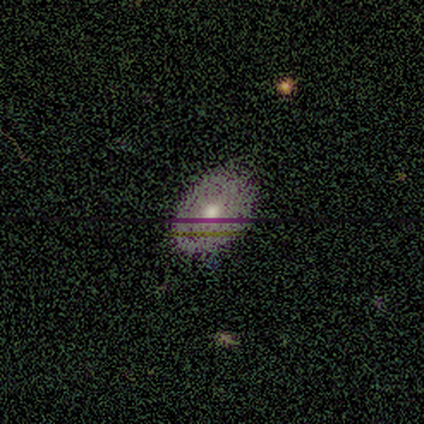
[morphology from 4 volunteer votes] Smooth or featured? 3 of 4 (75%) said featured or disk. Edge-on disk? 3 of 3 (100%) said no. Bar? 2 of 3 (67%) said no. Spiral arms? 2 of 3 (67%) said yes. Spiral winding? 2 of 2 (100%) said tight. Spiral arm count? 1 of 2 (50%, tied with can't tell) said 2. Bulge size? 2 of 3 (67%) said moderate. Merging? 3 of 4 (75%) said none.